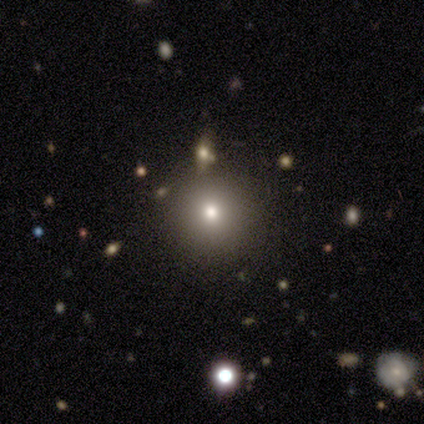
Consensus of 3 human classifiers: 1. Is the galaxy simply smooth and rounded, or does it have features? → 67% smooth, 33% star or artifact, 0% featured or disk.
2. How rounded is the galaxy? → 100% round, 0% in between, 0% cigar-shaped.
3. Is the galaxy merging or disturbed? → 100% none, 0% minor disturbance, 0% major disturbance, 0% merger.